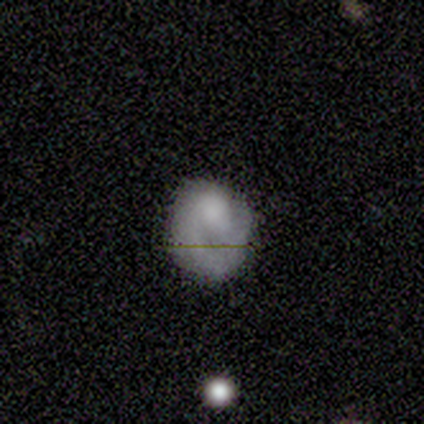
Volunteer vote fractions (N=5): Smooth or featured: featured or disk — 60% (smooth — 40%)
Edge-on disk: no — 100%
Bar: no — 67% (weak — 33%)
Spiral arms: yes — 67% (no — 33%)
Spiral winding: tight — 100%
Spiral arm count: 1 — 100%
Bulge size: dominant — 33% (tied with large — 33%; moderate — 33%)
Merging: none — 60% (minor disturbance — 40%)